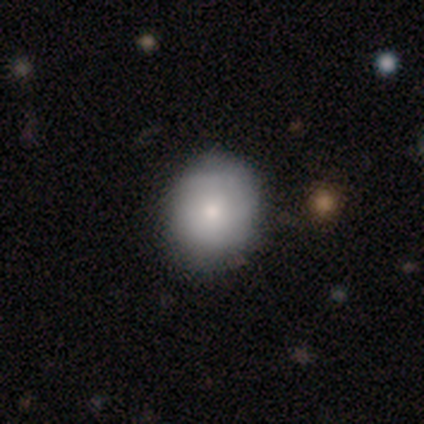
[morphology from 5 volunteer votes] Smooth or featured?
  - smooth: 40% * (tied)
  - featured or disk: 40% * (tied)
  - star or artifact: 20%
How rounded?
  - round: 100% *
  - in between: 0%
  - cigar-shaped: 0%
Merging?
  - none: 100% *
  - minor disturbance: 0%
  - major disturbance: 0%
  - merger: 0%